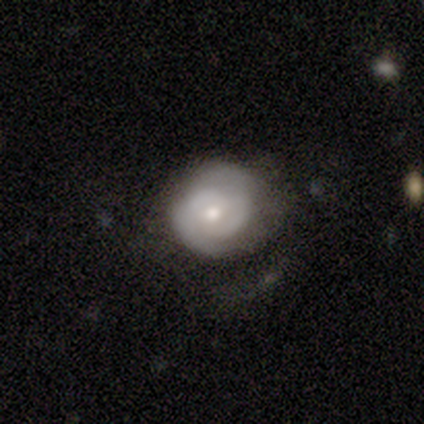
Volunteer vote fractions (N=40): Smooth or featured: featured or disk — 80% (smooth — 20%)
Edge-on disk: no — 100%
Bar: no — 75% (weak — 25%)
Spiral arms: yes — 94% (no — 6%)
Spiral winding: tight — 63% (medium — 27%)
Spiral arm count: 2 — 73% (can't tell — 23%)
Bulge size: moderate — 72% (small — 25%)
Merging: none — 48% (minor disturbance — 18%)